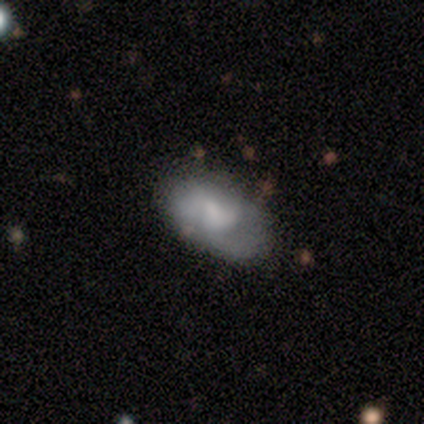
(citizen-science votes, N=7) Volunteers were most divided on "smooth or featured" (2-way tie): smooth: 43%, featured or disk: 43%, star or artifact: 14%. More confident: how rounded — in between (100%); merging — none (67%).